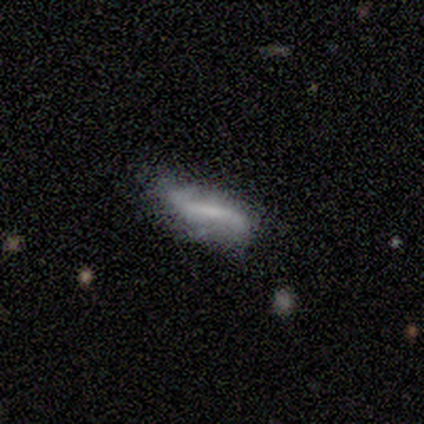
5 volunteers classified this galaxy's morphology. Overall: featured or disk (80%). Edge-on disk: no (100%). Bar: strong (50%, tied with no). Spiral arms: no (75%). Bulge size: none (50%; moderate 25%). Merging: none (60%; minor disturbance 40%).